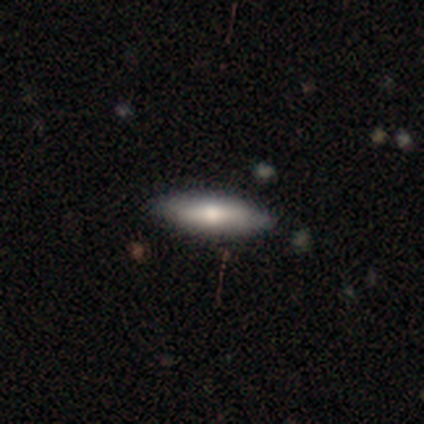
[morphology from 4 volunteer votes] A smooth galaxy with no disk features (50%, tied with featured or disk) that is round (50%, tied with in between). Merging: none (50%).